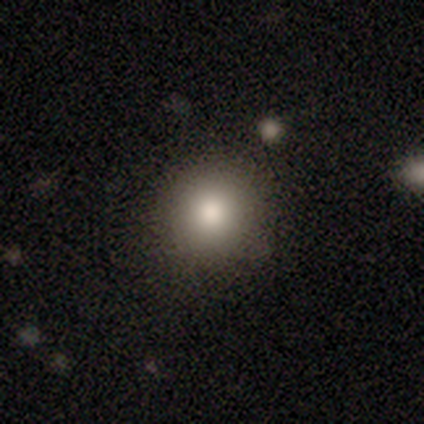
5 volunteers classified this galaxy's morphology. Consensus on every question: smooth or featured — smooth (100%); how rounded — round (100%); merging — none (100%).